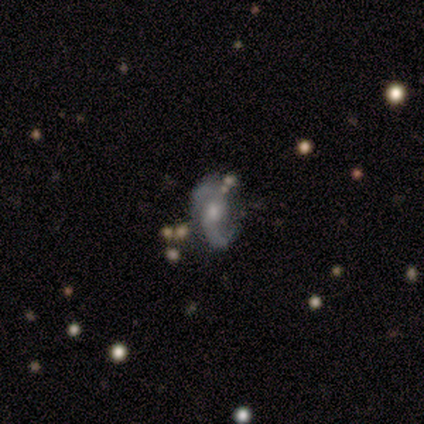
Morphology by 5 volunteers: smooth_or_featured: featured or disk (p=1.00)
disk_edge_on: no (p=0.80) [alt: yes p=0.20]
bar: no (p=0.75) [alt: weak p=0.25]
has_spiral_arms: yes (p=1.00)
spiral_winding: loose (p=0.75) [alt: medium p=0.25]
spiral_arm_count: 2 (p=1.00)
bulge_size: small (p=0.75) [alt: moderate p=0.25]
merging: none (p=0.60) [alt: minor disturbance p=0.20]